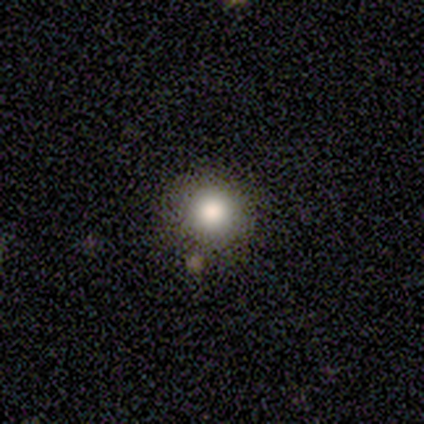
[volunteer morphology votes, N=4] This is likely a smooth galaxy (75%). How rounded: likely round (67%). Merging: likely none (75%).